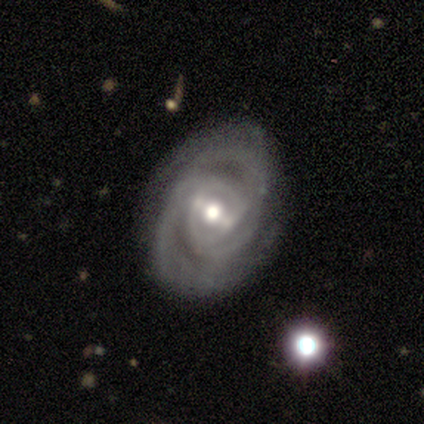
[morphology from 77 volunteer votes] A featured or disk galaxy (92%) with a weak bar (43%), 2 (41%) tight (68%) spiral arms (99%) and a moderate central bulge (63%). Merging: none (81%).